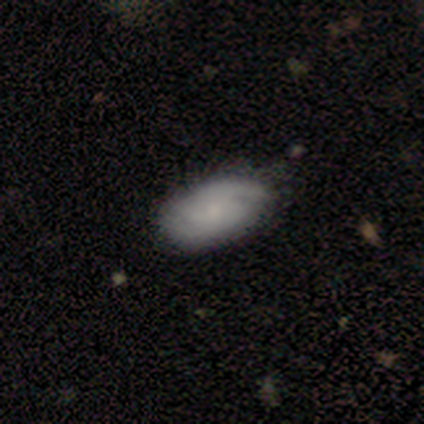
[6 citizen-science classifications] This is possibly a featured or disk galaxy (50%). It is clearly not viewed edge-on (100%). Bar: likely no (67%). Spiral arm pattern: clearly yes (100%). Spiral arm count: likely 2 (67%). Spiral winding: likely medium (67%). Central bulge: clearly small (100%). Merging: clearly none (80%).